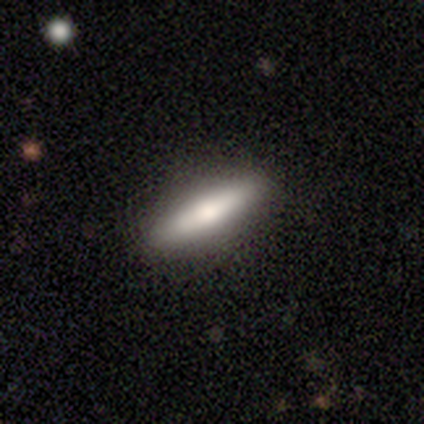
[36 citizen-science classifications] Smooth or featured? 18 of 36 (50%) said smooth. How rounded? 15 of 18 (83%) said cigar-shaped. Merging? 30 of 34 (88%) said none.